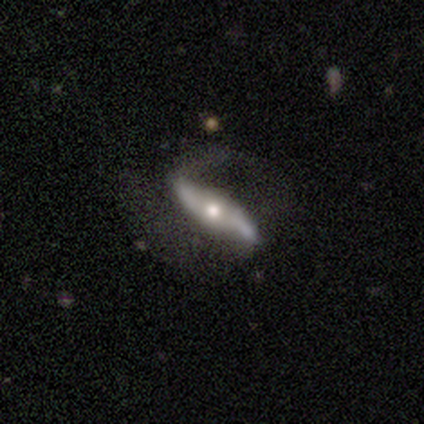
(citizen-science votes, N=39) This appears to be a featured or disk galaxy (90%) with a strong bar (38%, tied with weak), 2 (80%) loose (70%) spiral arms (95%) and a moderate central bulge (71%). Merging: none (51%).